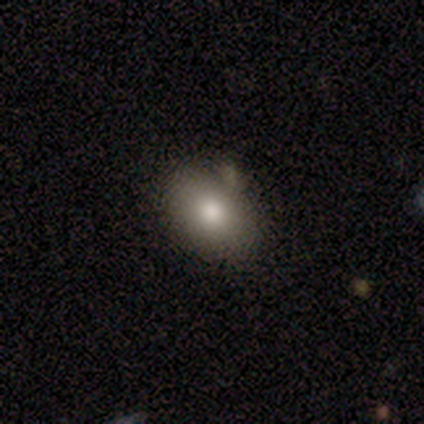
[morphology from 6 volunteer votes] Smooth or featured: smooth — 83% (featured or disk — 17%)
How rounded: in between — 60% (round — 40%)
Merging: none — 100%